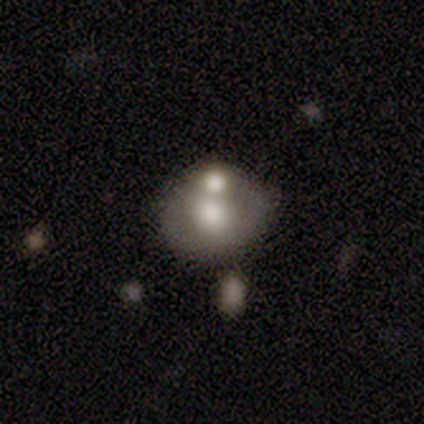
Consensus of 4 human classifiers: This is possibly a smooth galaxy (50%). How rounded: clearly in between (100%). Merging: marginally none (33%, tied with minor disturbance and merger).